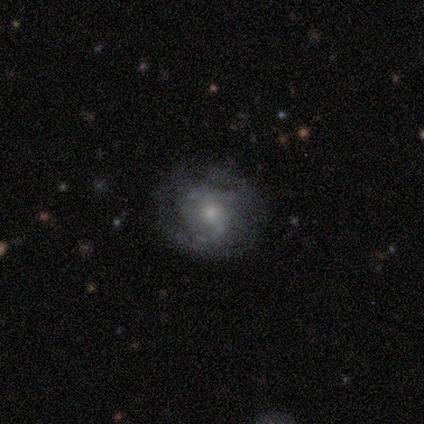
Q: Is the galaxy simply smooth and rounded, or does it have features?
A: featured or disk — 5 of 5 (100%).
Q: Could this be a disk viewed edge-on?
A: no — 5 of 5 (100%).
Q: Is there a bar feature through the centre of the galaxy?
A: weak — 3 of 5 (60%).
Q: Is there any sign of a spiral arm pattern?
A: yes — 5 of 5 (100%).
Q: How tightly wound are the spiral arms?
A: tight — 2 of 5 (40%, tied with medium).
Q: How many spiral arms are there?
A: can't tell — 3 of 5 (60%).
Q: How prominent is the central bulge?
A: moderate — 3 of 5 (60%).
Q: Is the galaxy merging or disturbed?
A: none — 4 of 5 (80%).